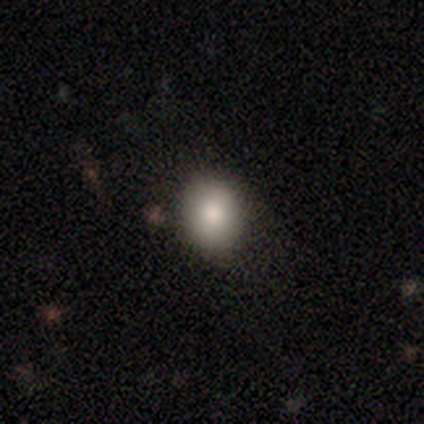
smooth-or-featured: smooth: 79% | star or artifact: 12% | featured or disk: 8%
  how-rounded: round: 63% | in between: 37% | cigar-shaped: 0%
  merging: none: 81% | minor disturbance: 12% | major disturbance: 5% | merger: 2%